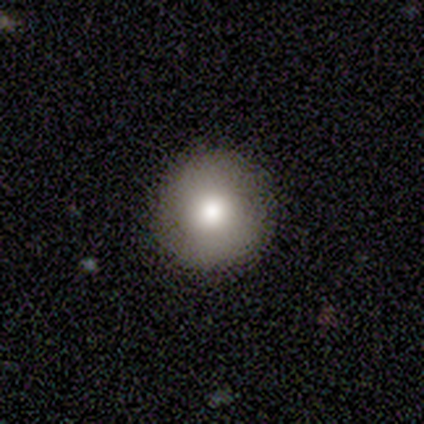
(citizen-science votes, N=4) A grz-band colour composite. It shows a smooth galaxy with no disk features (50%) that is round (100%). Merging: none (100%).